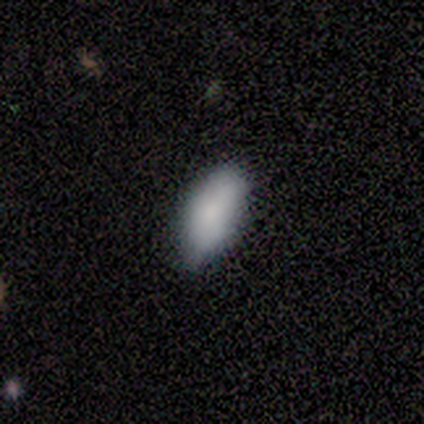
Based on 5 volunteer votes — Smooth or featured? smooth (60%)
How rounded? in between (67%)
Merging? none (40%, tied with minor disturbance)